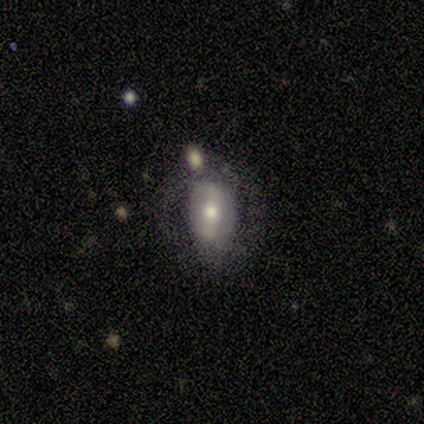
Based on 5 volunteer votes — A featured or disk galaxy (80%) with a strong bar (33%, tied with weak and no), no spiral arms (67%) and a small central bulge (67%).

Vote fractions:
- Smooth or featured? featured or disk: 80% / smooth: 20% / star or artifact: 0%
- Edge-on disk? no: 75% / yes: 25%
- Bar? strong: 33% (tied) / weak: 33% (tied) / no: 33% (tied)
- Spiral arms? no: 67% / yes: 33%
- Bulge size? small: 67% / moderate: 33% / dominant: 0% / large: 0% / none: 0%
- Merging? none: 60% / minor disturbance: 20% / major disturbance: 20% / merger: 0%